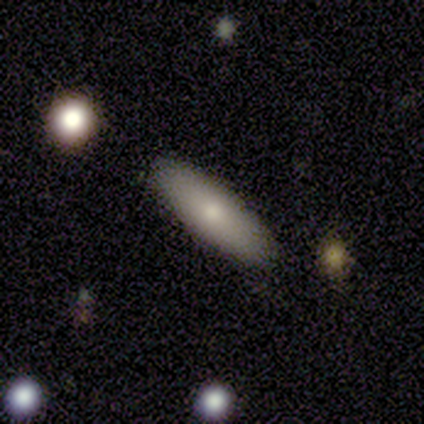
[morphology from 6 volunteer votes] Overall: smooth (100%). How rounded: in between (50%, tied with cigar-shaped). Merging: none (100%).